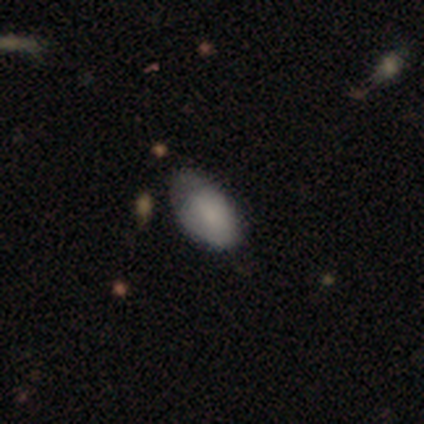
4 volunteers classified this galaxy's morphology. smooth-or-featured: smooth: 100% | featured or disk: 0% | star or artifact: 0%
  how-rounded: in between: 100% | round: 0% | cigar-shaped: 0%
  merging: minor disturbance: 75% | major disturbance: 25% | none: 0% | merger: 0%